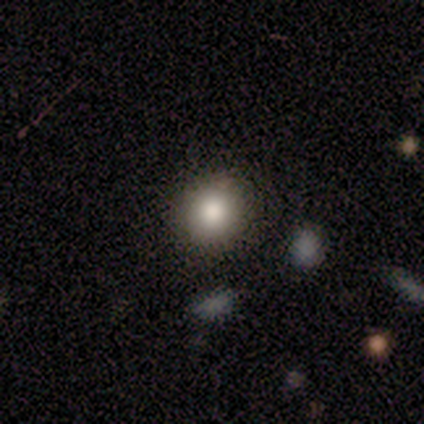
smooth-or-featured: smooth: 100% | featured or disk: 0% | star or artifact: 0%
  how-rounded: round: 64% | in between: 36% | cigar-shaped: 0%
  merging: none: 73% | minor disturbance: 27% | major disturbance: 0% | merger: 0%